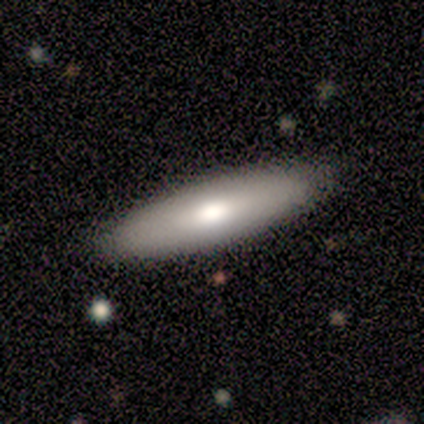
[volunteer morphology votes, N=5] Volunteers were most divided on "how rounded": in between: 60%, round: 20%, cigar-shaped: 20%. More confident: smooth or featured — smooth (100%); merging — none (100%).